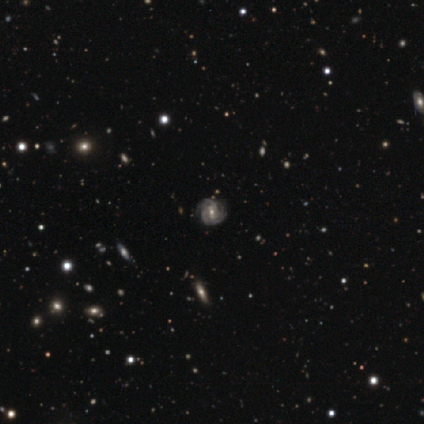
This is clearly a featured or disk galaxy (100%). It is clearly not viewed edge-on (100%). Bar: marginally weak (40%, tied with no). Spiral arm pattern: clearly yes (100%). Spiral arm count: likely can't tell (60%). Spiral winding: likely medium (60%). Central bulge: likely small (60%). Merging: likely none (60%).